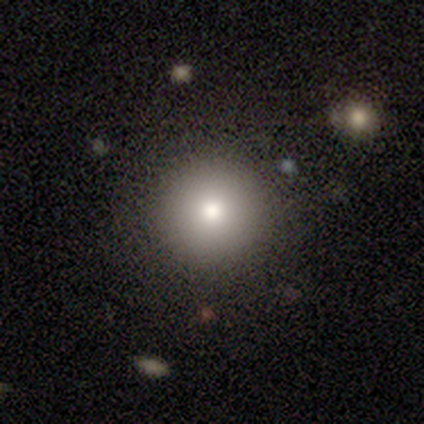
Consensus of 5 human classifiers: Smooth or featured?
  - smooth: 60% *
  - featured or disk: 20%
  - star or artifact: 20%
How rounded?
  - round: 100% *
  - in between: 0%
  - cigar-shaped: 0%
Merging?
  - none: 100% *
  - minor disturbance: 0%
  - major disturbance: 0%
  - merger: 0%